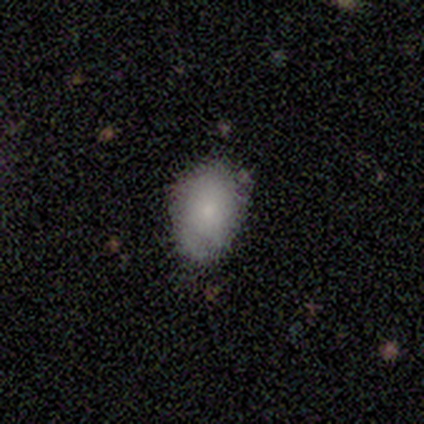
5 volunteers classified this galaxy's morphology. type=smooth (60%); roundness=in between (100%); merging=minor disturbance (75%).